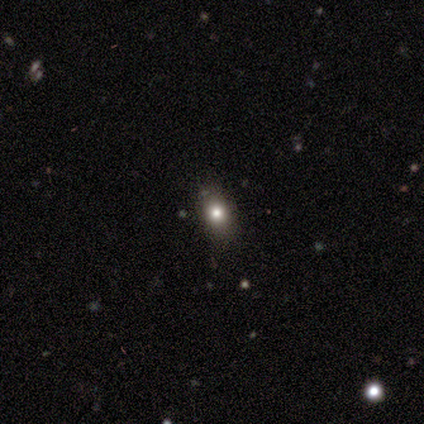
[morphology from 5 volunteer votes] smooth-or-featured: smooth: 80% | star or artifact: 20% | featured or disk: 0%
  how-rounded: round: 50% (tied) | in between: 50% (tied) | cigar-shaped: 0%
  merging: none: 75% | major disturbance: 25% | minor disturbance: 0% | merger: 0%